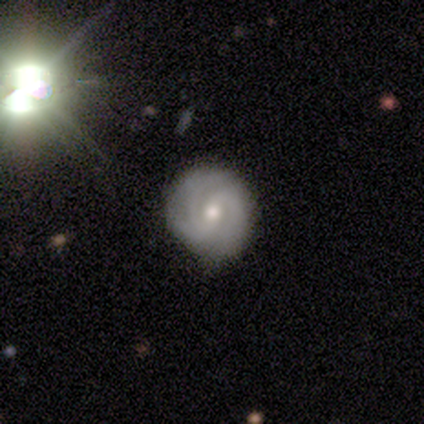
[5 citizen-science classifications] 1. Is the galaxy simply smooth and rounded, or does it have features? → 60% featured or disk, 40% star or artifact, 0% smooth.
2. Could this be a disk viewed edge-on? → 100% no, 0% yes.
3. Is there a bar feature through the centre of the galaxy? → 67% no, 33% weak, 0% strong.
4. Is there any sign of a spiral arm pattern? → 67% yes, 33% no.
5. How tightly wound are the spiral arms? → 50% tight (tied), 50% medium (tied), 0% loose.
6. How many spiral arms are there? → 50% 2 (tied), 50% 3 (tied), 0% 1, 0% 4, 0% more than 4, 0% can't tell.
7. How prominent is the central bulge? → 67% small, 33% moderate, 0% dominant, 0% large, 0% none.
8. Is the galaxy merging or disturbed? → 100% none, 0% minor disturbance, 0% major disturbance, 0% merger.